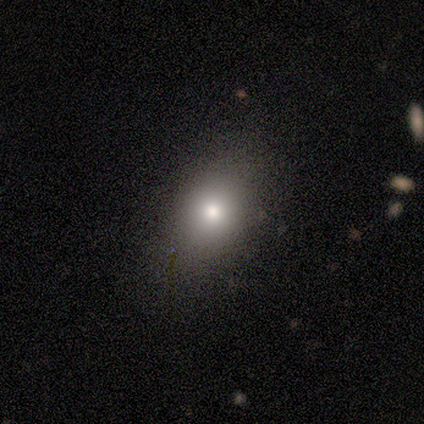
This appears to be a smooth galaxy with no disk features (80%) that is in between round and cigar-shaped (100%). Merging: none (80%).